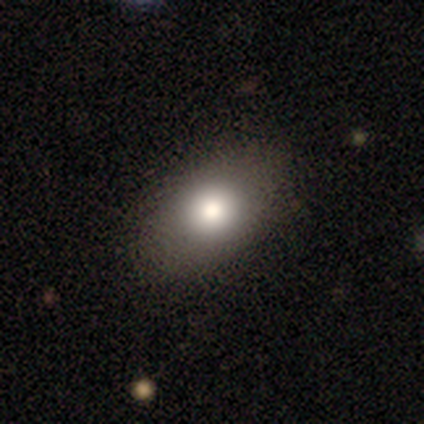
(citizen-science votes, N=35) This appears to be a smooth galaxy with no disk features (80%) that is in between round and cigar-shaped (71%). Merging: none (90%).